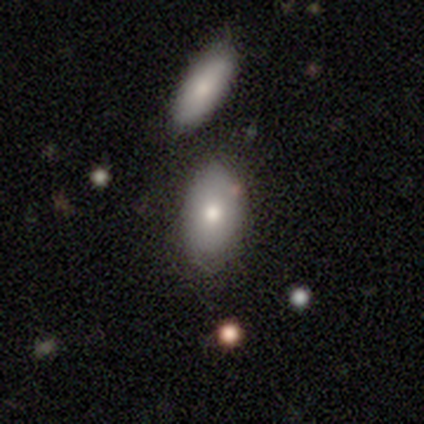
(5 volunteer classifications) smooth_or_featured: smooth (p=0.40) [tied with: featured or disk p=0.40]
how_rounded: in between (p=1.00)
merging: merger (p=0.50) [alt: none p=0.25]